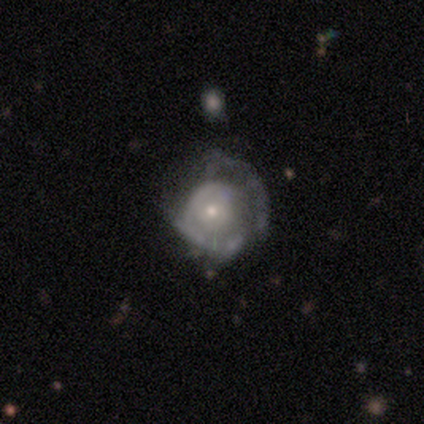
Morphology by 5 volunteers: smooth_or_featured: featured or disk (p=1.00)
disk_edge_on: no (p=1.00)
bar: no (p=1.00)
has_spiral_arms: no (p=0.60) [alt: yes p=0.40]
bulge_size: small (p=0.80) [alt: moderate p=0.20]
merging: none (p=0.40) [tied with: major disturbance p=0.40]